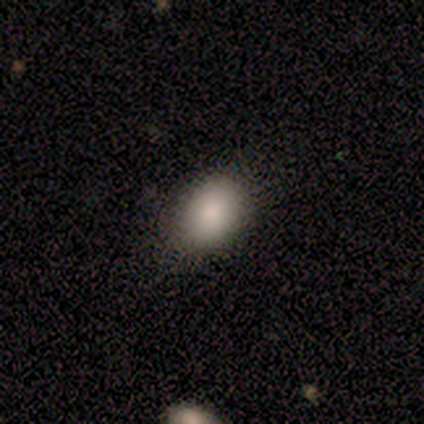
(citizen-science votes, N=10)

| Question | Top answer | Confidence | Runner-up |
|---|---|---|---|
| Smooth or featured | smooth | 100% | — |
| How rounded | in between | 70% | round (30%) |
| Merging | none | 90% | major disturbance (10%) |